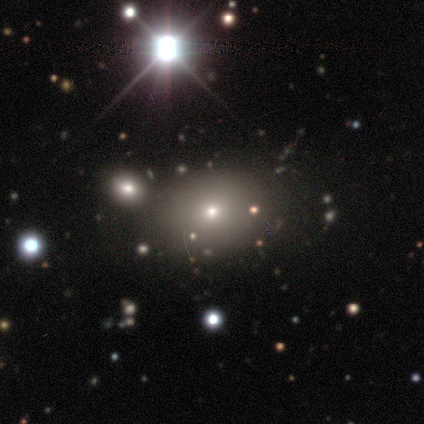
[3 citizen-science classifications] smooth_or_featured: smooth (p=0.67) [alt: featured or disk p=0.33]
how_rounded: round (p=0.50) [tied with: in between p=0.50]
merging: none (p=0.67) [alt: merger p=0.33]